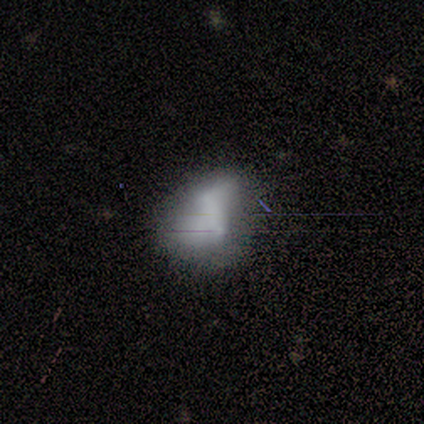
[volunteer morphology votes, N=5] featured or disk 60%, smooth 20%, star or artifact 20%. Down the decision tree: edge-on disk — no (100%); bar — strong (33%, tied with weak and no); spiral arms — yes (67%); spiral arm count — 2 (100%); spiral winding — loose (100%); bulge size — moderate (33%, tied with small and none); merging — minor disturbance (50%).